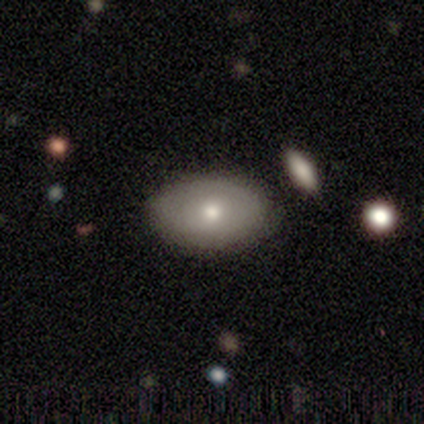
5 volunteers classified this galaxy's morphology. Q: Smooth or featured?
A: smooth (80%); runner-up: featured or disk (20%)
Q: How rounded?
A: in between (100%)
Q: Merging?
A: none (80%); runner-up: minor disturbance (20%)